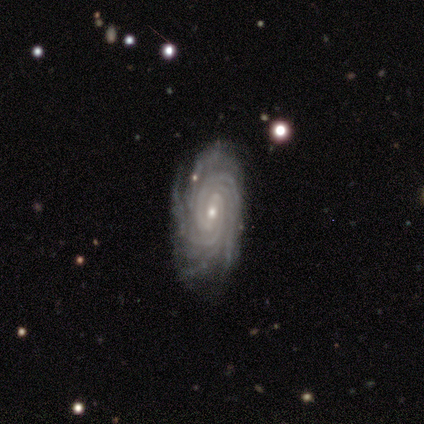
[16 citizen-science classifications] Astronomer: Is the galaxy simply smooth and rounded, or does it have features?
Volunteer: featured or disk — 94%.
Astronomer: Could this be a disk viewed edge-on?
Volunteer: no — 100%.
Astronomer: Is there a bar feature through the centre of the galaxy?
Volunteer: weak — 53% (runner-up: no, 47%).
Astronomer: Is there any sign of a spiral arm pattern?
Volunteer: yes — 100%.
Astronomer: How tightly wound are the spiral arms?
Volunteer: tight — 93%.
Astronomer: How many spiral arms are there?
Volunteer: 4 — 33% (runner-up: more than 4, 27%).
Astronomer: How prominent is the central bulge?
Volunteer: small — 67%.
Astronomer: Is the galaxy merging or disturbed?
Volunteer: none — 67%.